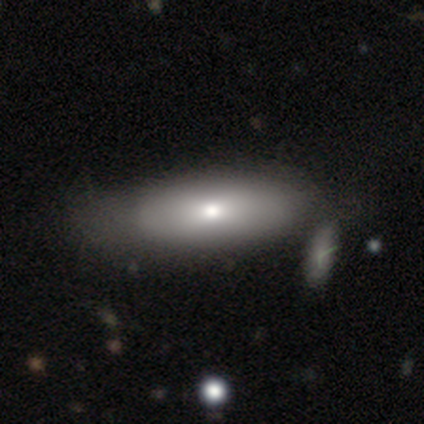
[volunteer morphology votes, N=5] Smooth or featured? smooth (80%)
How rounded? in between (50%, tied with cigar-shaped)
Merging? none (60%)